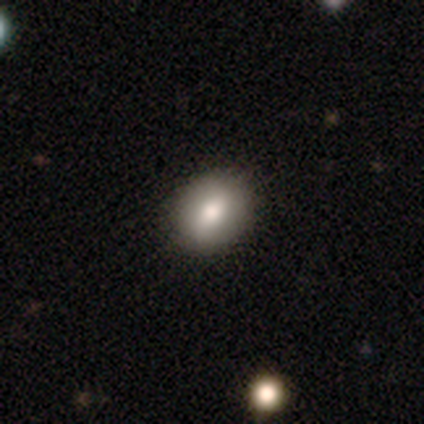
smooth-or-featured: smooth: 86% | star or artifact: 14% | featured or disk: 0%
  how-rounded: in between: 67% | round: 33% | cigar-shaped: 0%
  merging: none: 67% | minor disturbance: 33% | major disturbance: 0% | merger: 0%